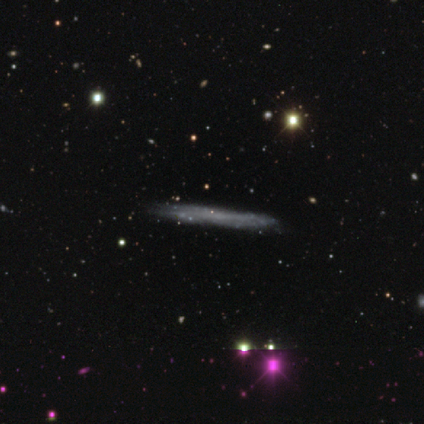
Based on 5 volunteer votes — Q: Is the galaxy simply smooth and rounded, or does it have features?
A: featured or disk — 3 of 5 (60%).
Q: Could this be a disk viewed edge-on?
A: yes — 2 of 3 (67%).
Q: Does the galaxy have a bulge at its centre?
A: none — 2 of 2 (100%).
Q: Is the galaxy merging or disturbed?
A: none — 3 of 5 (60%).